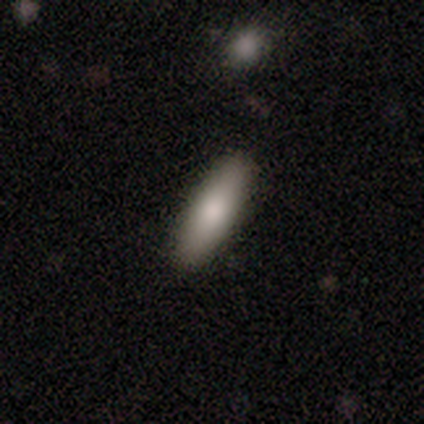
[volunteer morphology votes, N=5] Volunteers were most divided on "how rounded": cigar-shaped: 67%, round: 33%, in between: 0%. More confident: merging — none (75%); smooth or featured — smooth (60%).